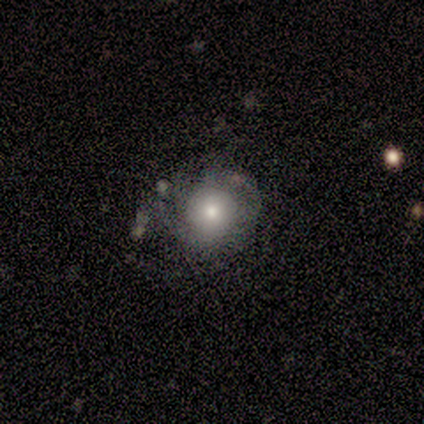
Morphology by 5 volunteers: Overall: featured or disk (80%). Edge-on disk: no (100%). Bar: no (75%). Spiral arms: yes (50%, tied with no). Spiral arm count: 2 (50%, tied with 3). Spiral winding: tight (50%, tied with medium). Bulge size: small (75%). Merging: none (80%).